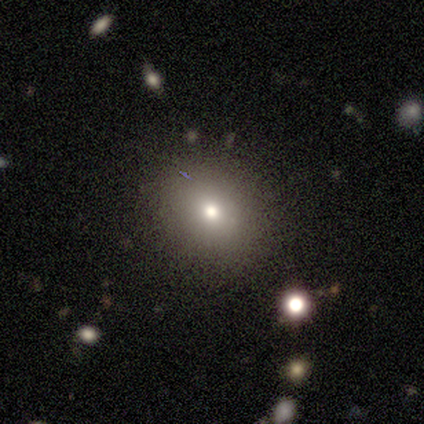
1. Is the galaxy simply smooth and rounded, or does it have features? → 100% smooth, 0% featured or disk, 0% star or artifact.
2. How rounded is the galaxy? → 75% round, 25% in between, 0% cigar-shaped.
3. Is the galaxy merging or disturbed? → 100% none, 0% minor disturbance, 0% major disturbance, 0% merger.